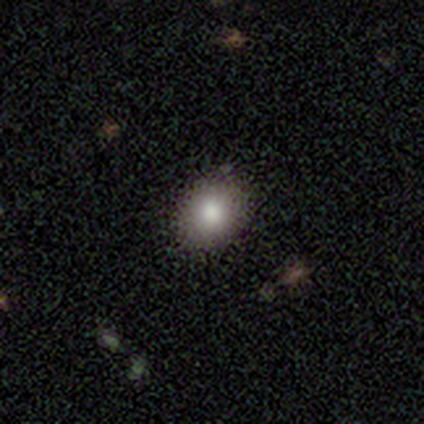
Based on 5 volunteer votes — Smooth or featured? smooth (80%)
How rounded? in between (75%)
Merging? none (75%)